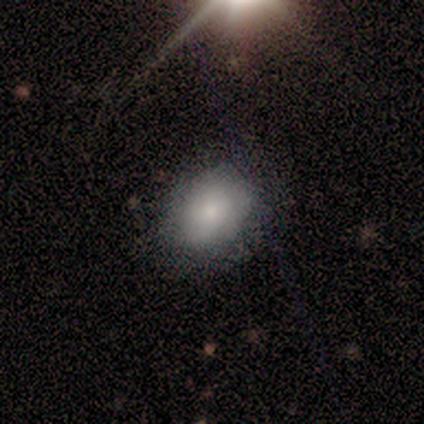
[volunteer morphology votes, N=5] smooth 80%, star or artifact 20%, featured or disk 0%. Down the decision tree: how rounded — round (50%, tied with in between); merging — none (75%).